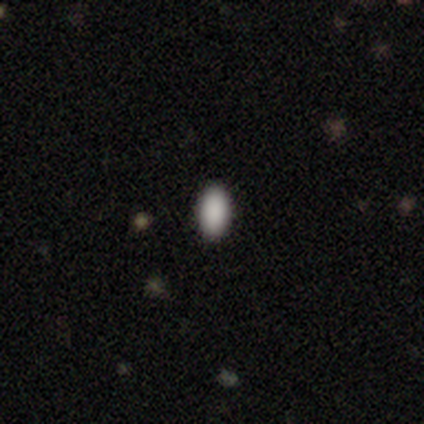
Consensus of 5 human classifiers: Smooth or featured?
  - smooth: 100% *
  - featured or disk: 0%
  - star or artifact: 0%
How rounded?
  - in between: 100% *
  - round: 0%
  - cigar-shaped: 0%
Merging?
  - none: 80% *
  - minor disturbance: 20%
  - major disturbance: 0%
  - merger: 0%